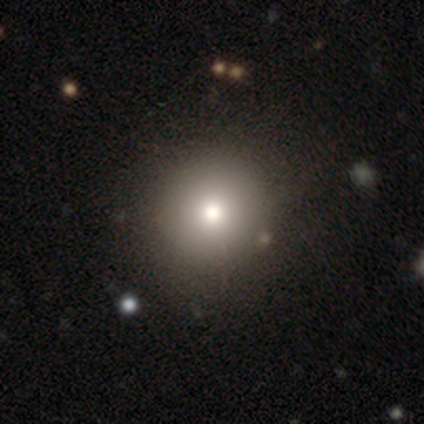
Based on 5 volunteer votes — smooth-or-featured: smooth: 80% | star or artifact: 20% | featured or disk: 0%
  how-rounded: round: 50% (tied) | in between: 50% (tied) | cigar-shaped: 0%
  merging: none: 75% | major disturbance: 25% | minor disturbance: 0% | merger: 0%